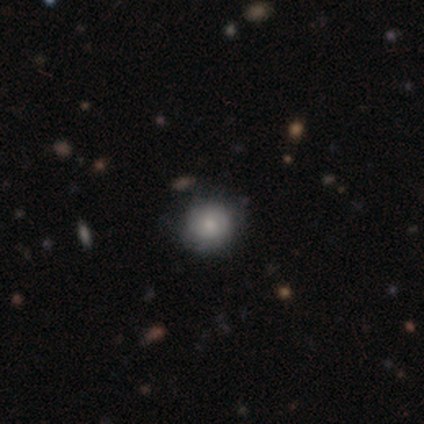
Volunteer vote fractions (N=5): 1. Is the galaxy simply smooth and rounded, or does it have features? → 40% featured or disk (tied), 40% star or artifact (tied), 20% smooth.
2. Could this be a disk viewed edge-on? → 100% no, 0% yes.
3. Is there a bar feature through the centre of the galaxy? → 100% no, 0% strong, 0% weak.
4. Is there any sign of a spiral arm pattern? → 50% yes (tied), 50% no (tied).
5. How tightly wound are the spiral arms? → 100% loose, 0% tight, 0% medium.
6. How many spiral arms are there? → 100% can't tell, 0% 1, 0% 2, 0% 3, 0% 4, 0% more than 4.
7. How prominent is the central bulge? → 100% small, 0% dominant, 0% large, 0% moderate, 0% none.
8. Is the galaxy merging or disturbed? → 100% none, 0% minor disturbance, 0% major disturbance, 0% merger.